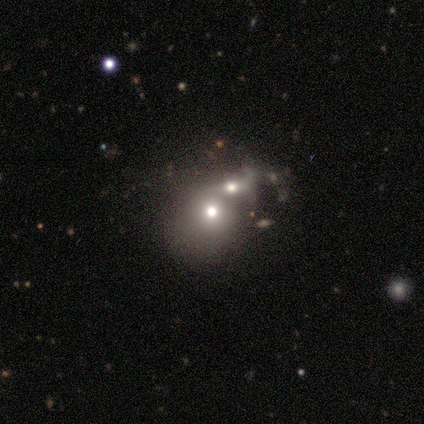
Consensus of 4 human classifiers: Smooth or featured? smooth (50%)
How rounded? round (50%, tied with in between)
Merging? merger (100%)